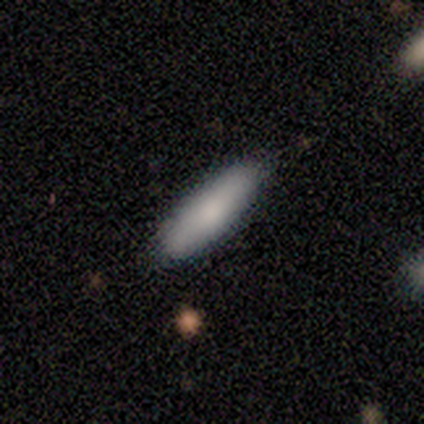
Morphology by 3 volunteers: type=smooth (67%); roundness=in between (50%, tied with cigar-shaped); merging=none (100%).